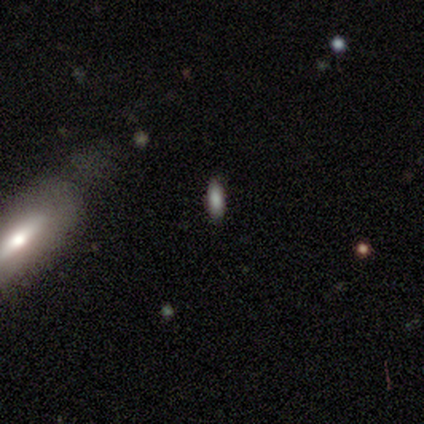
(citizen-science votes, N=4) Smooth or featured? smooth (75%)
How rounded? in between (67%)
Merging? none (75%)